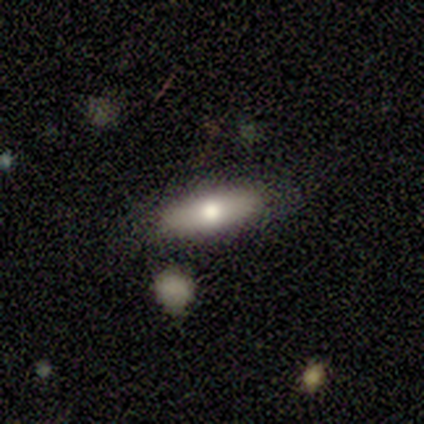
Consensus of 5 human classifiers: This is likely a smooth galaxy (60%). How rounded: likely cigar-shaped (67%). Merging: likely none (60%).